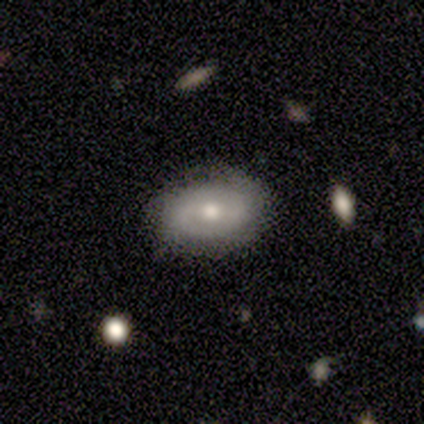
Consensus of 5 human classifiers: A featured or disk galaxy (60%) viewed edge-on (67%) with no central bulge (50%, tied with rounded).

Vote fractions:
- Smooth or featured? featured or disk: 60% / smooth: 20% / star or artifact: 20%
- Edge-on disk? yes: 67% / no: 33%
- Edge-on bulge? none: 50% (tied) / rounded: 50% (tied) / boxy: 0%
- Merging? none: 75% / minor disturbance: 25% / major disturbance: 0% / merger: 0%